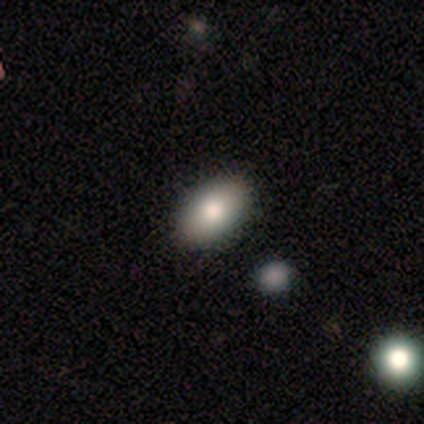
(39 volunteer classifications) smooth_or_featured: smooth (p=0.77) [alt: featured or disk p=0.13]
how_rounded: in between (p=0.93) [alt: round p=0.07]
merging: none (p=0.91) [alt: minor disturbance p=0.03]